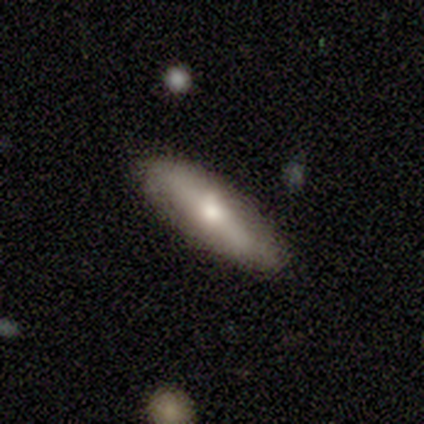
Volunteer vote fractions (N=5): Morphology: type=smooth (80%); roundness=in between (50%, tied with cigar-shaped); merging=none (75%).